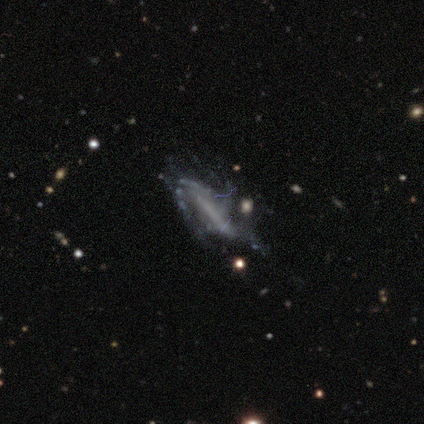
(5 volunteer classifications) Smooth or featured: featured or disk — 60% (smooth — 20%)
Edge-on disk: no — 67% (yes — 33%)
Bar: strong — 50% (tied with weak — 50%)
Spiral arms: yes — 50% (tied with no — 50%)
Spiral winding: loose — 100%
Spiral arm count: can't tell — 100%
Bulge size: none — 100%
Merging: minor disturbance — 75% (merger — 25%)